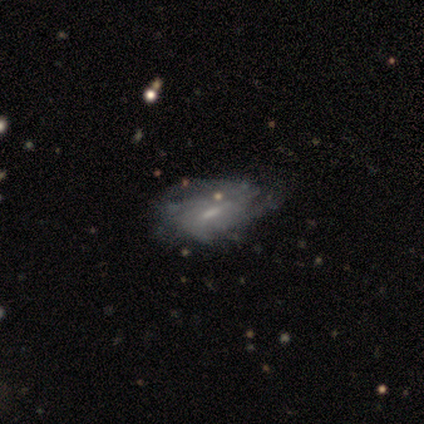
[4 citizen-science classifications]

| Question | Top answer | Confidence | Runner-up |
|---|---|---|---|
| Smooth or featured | smooth | 50% | tied: featured or disk (50%) |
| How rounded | in between | 100% | — |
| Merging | none | 50% | minor disturbance (25%) |